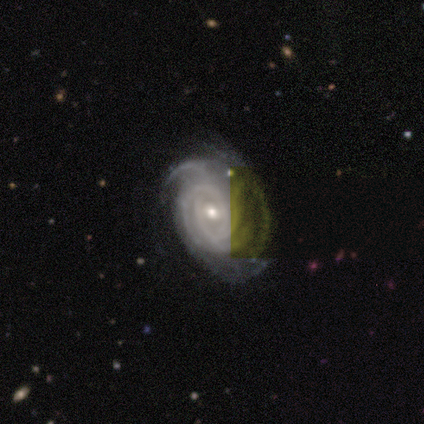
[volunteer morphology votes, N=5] Smooth or featured? 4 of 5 (80%) said featured or disk. Edge-on disk? 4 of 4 (100%) said no. Bar? 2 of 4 (50%, tied with no) said weak. Spiral arms? 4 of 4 (100%) said yes. Spiral winding? 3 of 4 (75%) said tight. Spiral arm count? 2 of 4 (50%) said 4. Bulge size? 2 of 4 (50%, tied with small) said moderate. Merging? 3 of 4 (75%) said none.